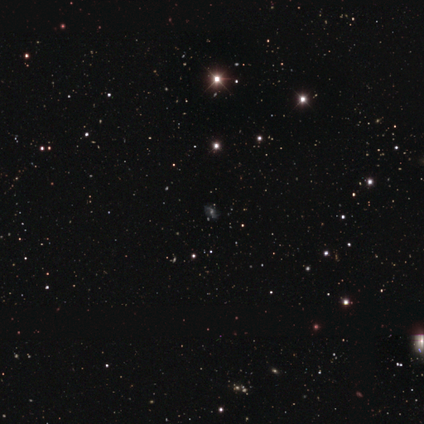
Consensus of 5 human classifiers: A star or artifact, not a galaxy (60%).